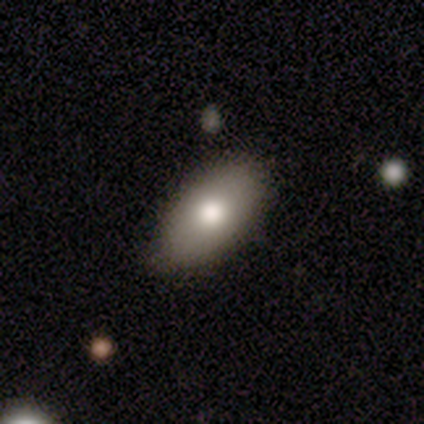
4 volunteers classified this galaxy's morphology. smooth-or-featured: smooth: 50% (tied) | featured or disk: 50% (tied) | star or artifact: 0%
  how-rounded: in between: 100% | round: 0% | cigar-shaped: 0%
  merging: none: 75% | minor disturbance: 25% | major disturbance: 0% | merger: 0%